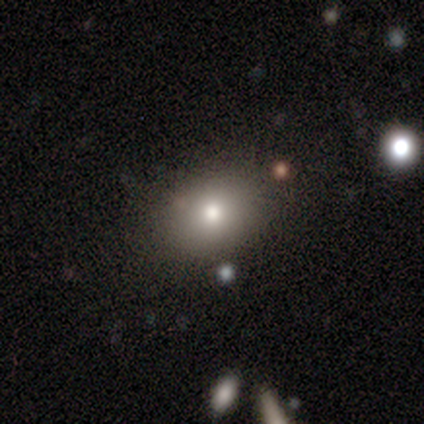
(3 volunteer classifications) Smooth or featured?
  - smooth: 100% *
  - featured or disk: 0%
  - star or artifact: 0%
How rounded?
  - in between: 67% *
  - round: 33%
  - cigar-shaped: 0%
Merging?
  - none: 100% *
  - minor disturbance: 0%
  - major disturbance: 0%
  - merger: 0%